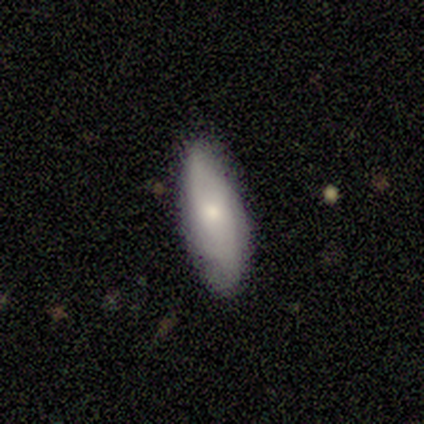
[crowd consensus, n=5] Volunteers were most divided on "spiral arms" (2-way tie): yes: 50%, no: 50%; "bulge size" (2-way tie): moderate: 50%, none: 50%, dominant: 0%, large: 0%, small: 0%. More confident: bar — no (100%); spiral winding — medium (100%); spiral arm count — can't tell (100%); merging — none (100%); edge-on disk — no (67%); smooth or featured — featured or disk (60%).